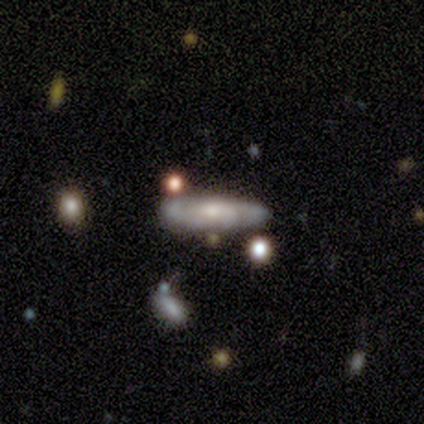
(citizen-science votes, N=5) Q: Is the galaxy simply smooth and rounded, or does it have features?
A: featured or disk — 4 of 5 (80%).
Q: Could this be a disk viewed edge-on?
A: yes — 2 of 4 (50%, tied with no).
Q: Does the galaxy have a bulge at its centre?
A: rounded — 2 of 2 (100%).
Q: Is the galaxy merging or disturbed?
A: none — 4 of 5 (80%).